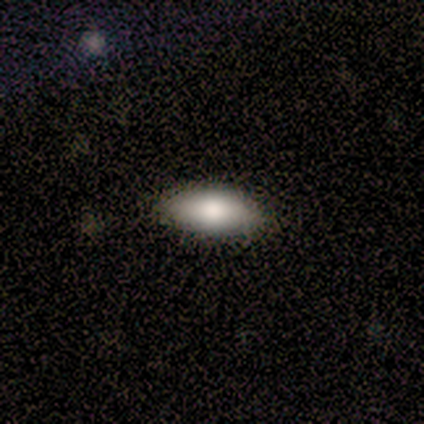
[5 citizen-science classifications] Smooth or featured? smooth (60%)
How rounded? in between (100%)
Merging? none (100%)